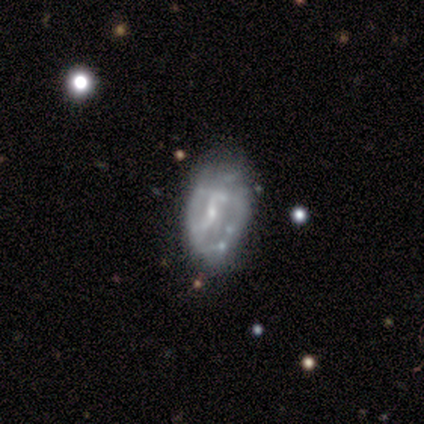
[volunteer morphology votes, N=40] Overall: featured or disk (75%). Edge-on disk: no (97%). Bar: weak (48%; no 38%). Spiral arms: yes (55%; no 45%). Spiral arm count: can't tell (69%). Spiral winding: tight (50%; loose 31%). Bulge size: small (69%). Merging: none (47%; minor disturbance 39%).